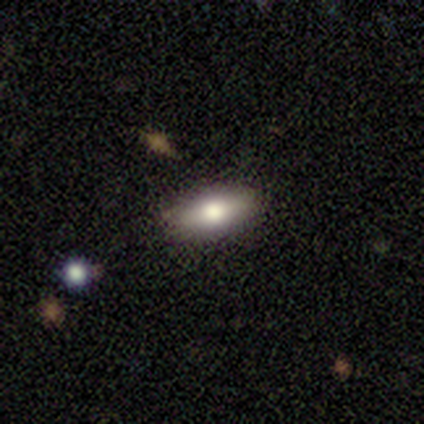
A smooth galaxy with no disk features (72%) that is in between round and cigar-shaped (76%).

Vote fractions:
- Smooth or featured? smooth: 72% / featured or disk: 25% / star or artifact: 2%
- How rounded? in between: 76% / cigar-shaped: 24% / round: 0%
- Merging? none: 85% / minor disturbance: 8% / major disturbance: 8% / merger: 0%